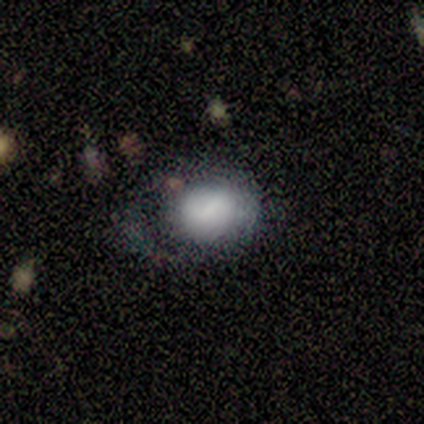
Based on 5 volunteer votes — Smooth or featured?
  - smooth: 80% *
  - star or artifact: 20%
  - featured or disk: 0%
How rounded?
  - round: 50% * (tied)
  - in between: 50% * (tied)
  - cigar-shaped: 0%
Merging?
  - minor disturbance: 50% *
  - none: 25%
  - major disturbance: 25%
  - merger: 0%